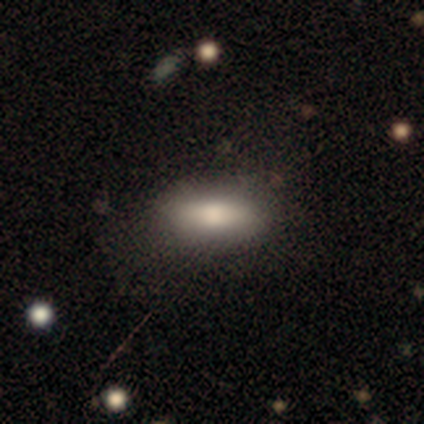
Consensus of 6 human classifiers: Smooth or featured? smooth (100%)
How rounded? in between (83%)
Merging? none (100%)